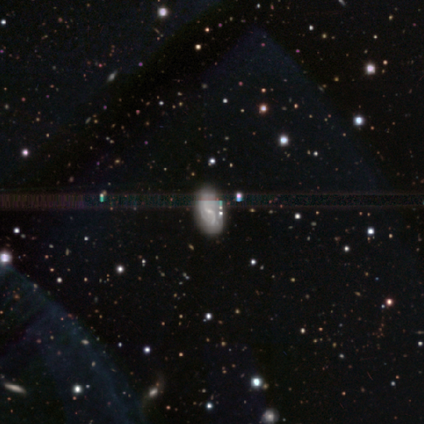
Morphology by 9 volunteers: featured or disk 56%, star or artifact 44%, smooth 0%. Down the decision tree: edge-on disk — no (100%); bar — weak (60%); spiral arms — yes (100%); spiral arm count — 2 (80%); spiral winding — loose (60%); bulge size — small (60%); merging — none (100%).